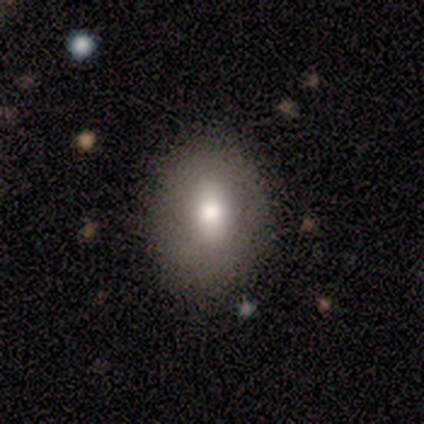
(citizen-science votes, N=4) Morphology: type=smooth (50%); roundness=round (50%, tied with in between); merging=none (100%).